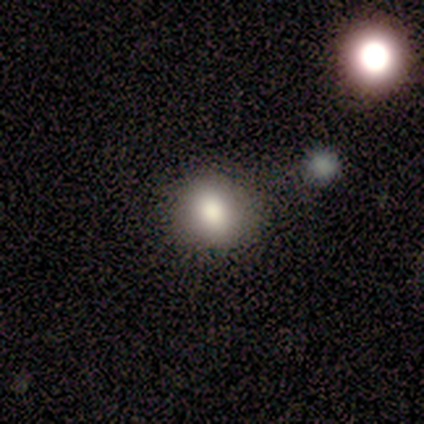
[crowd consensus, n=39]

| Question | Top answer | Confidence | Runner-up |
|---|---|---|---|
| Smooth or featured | smooth | 87% | featured or disk (8%) |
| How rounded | round | 79% | in between (21%) |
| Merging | none | 81% | minor disturbance (16%) |